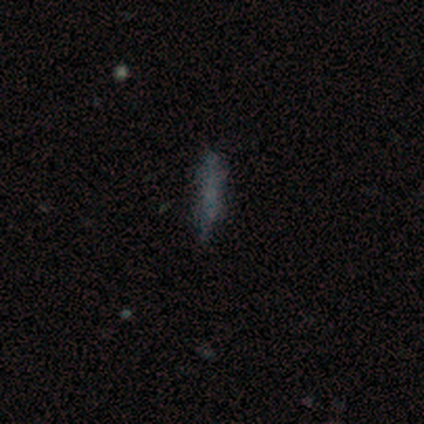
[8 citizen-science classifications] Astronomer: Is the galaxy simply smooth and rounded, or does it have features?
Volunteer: smooth — 75%.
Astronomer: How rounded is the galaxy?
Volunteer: cigar-shaped — 100%.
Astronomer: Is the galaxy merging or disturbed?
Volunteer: none — 75%.